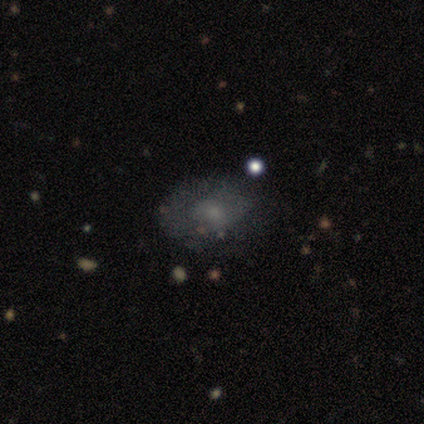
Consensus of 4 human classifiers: A smooth galaxy with no disk features (75%) that is in between round and cigar-shaped (100%).

Vote fractions:
- Smooth or featured? smooth: 75% / star or artifact: 25% / featured or disk: 0%
- How rounded? in between: 100% / round: 0% / cigar-shaped: 0%
- Merging? minor disturbance: 100% / none: 0% / major disturbance: 0% / merger: 0%